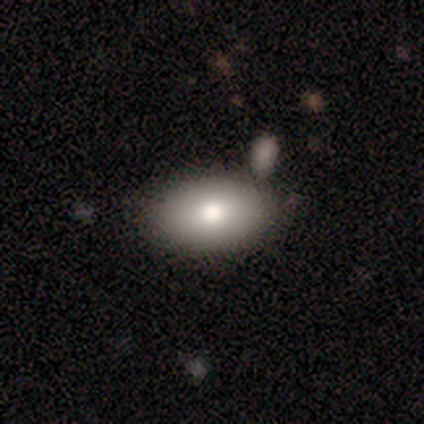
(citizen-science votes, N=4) This is likely a smooth galaxy (75%). How rounded: likely in between (67%). Merging: likely none (67%).